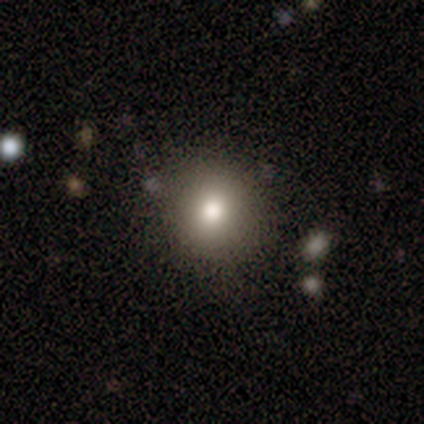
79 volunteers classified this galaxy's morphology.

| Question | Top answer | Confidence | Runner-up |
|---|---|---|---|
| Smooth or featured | smooth | 91% | star or artifact (6%) |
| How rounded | round | 88% | in between (12%) |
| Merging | none | 43% | merger (5%) |